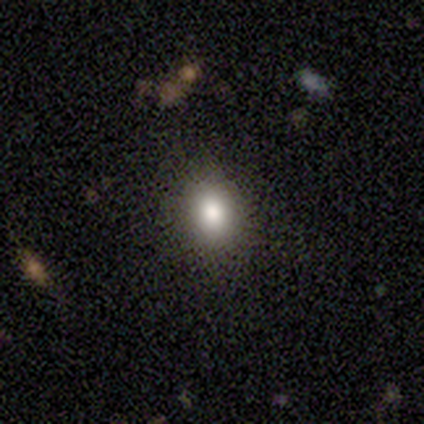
Volunteers were most divided on "how rounded": round: 67%, in between: 33%, cigar-shaped: 0%. More confident: smooth or featured — smooth (75%); merging — none (67%).